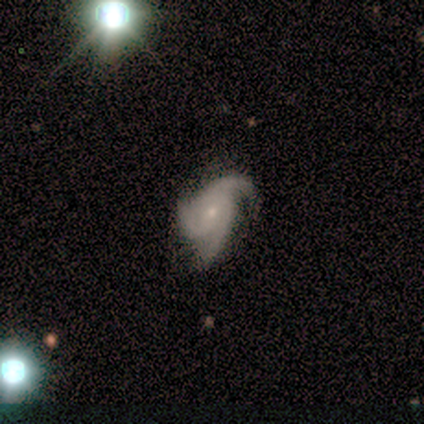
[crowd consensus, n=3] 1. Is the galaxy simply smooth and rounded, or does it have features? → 100% featured or disk, 0% smooth, 0% star or artifact.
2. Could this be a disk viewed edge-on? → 100% no, 0% yes.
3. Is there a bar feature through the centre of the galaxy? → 100% no, 0% strong, 0% weak.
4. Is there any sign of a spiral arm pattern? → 100% yes, 0% no.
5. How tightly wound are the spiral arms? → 100% loose, 0% tight, 0% medium.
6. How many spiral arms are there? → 67% 3, 33% 2, 0% 1, 0% 4, 0% more than 4, 0% can't tell.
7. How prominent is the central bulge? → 67% small, 33% dominant, 0% large, 0% moderate, 0% none.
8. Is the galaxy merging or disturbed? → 67% none, 33% minor disturbance, 0% major disturbance, 0% merger.